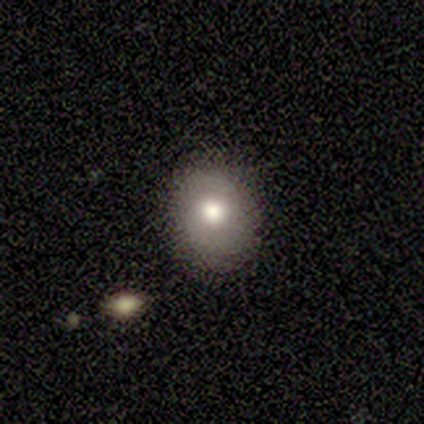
Smooth or featured: smooth — 82% (featured or disk — 18%)
How rounded: in between — 56% (round — 44%)
Merging: none — 82% (minor disturbance — 18%)